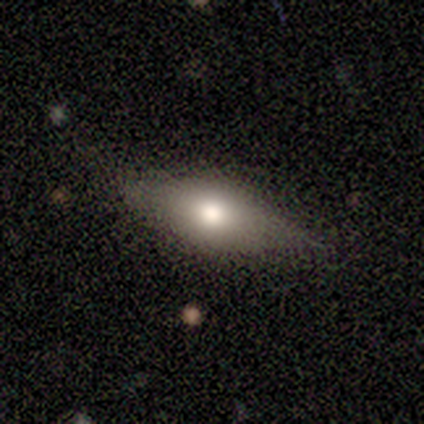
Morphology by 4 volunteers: This is possibly a smooth galaxy (50%). How rounded: possibly in between (50%, tied with cigar-shaped). Merging: likely none (67%).